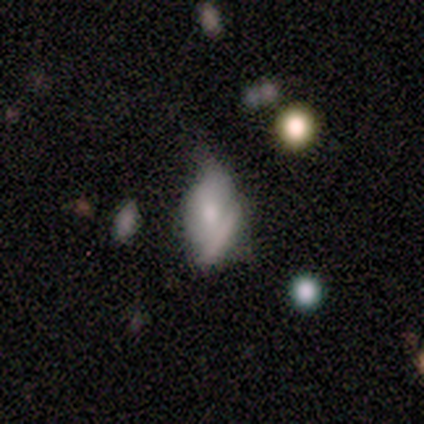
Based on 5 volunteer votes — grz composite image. It shows a smooth galaxy with no disk features (100%) that is in between round and cigar-shaped (100%). Merging: minor disturbance (40%).